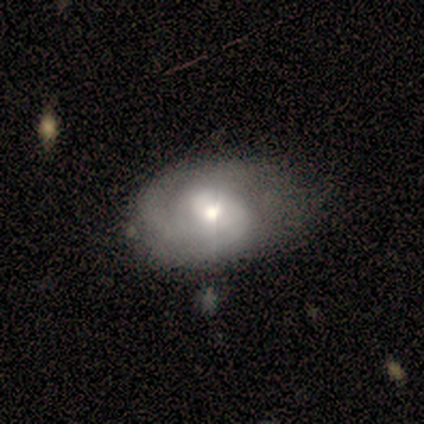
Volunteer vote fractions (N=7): A featured or disk galaxy (71%) with no bar (60%), 2 (100%) tight (60%) spiral arms (100%) and a moderate central bulge (60%). Merging: none (57%).